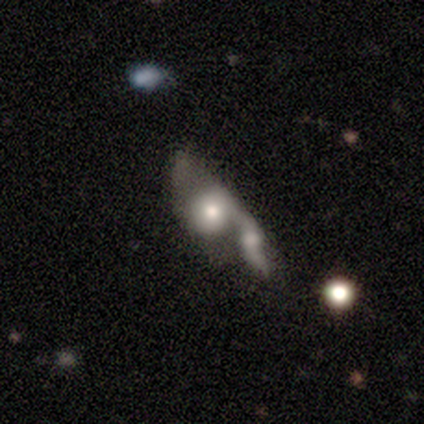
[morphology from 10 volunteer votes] Smooth or featured? 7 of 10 (70%) said smooth. How rounded? 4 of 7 (57%) said round. Merging? 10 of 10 (100%) said merger.